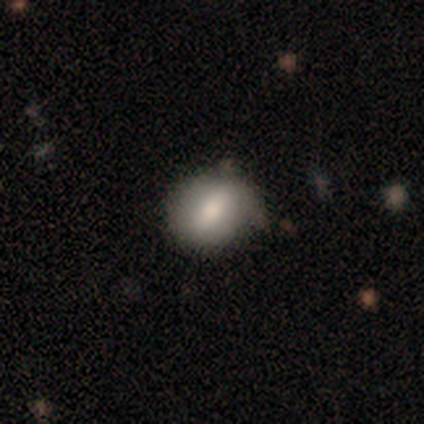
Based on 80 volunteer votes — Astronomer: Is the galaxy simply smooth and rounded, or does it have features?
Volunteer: smooth — 68%.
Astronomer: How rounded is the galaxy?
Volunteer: round — 54% (runner-up: in between, 41%).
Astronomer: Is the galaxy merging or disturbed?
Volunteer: none — 33% (runner-up: minor disturbance, 16%).